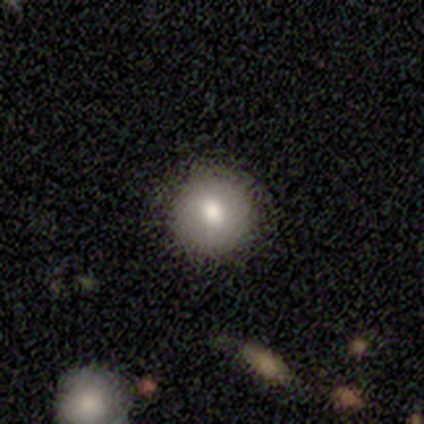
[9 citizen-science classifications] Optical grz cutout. It shows a smooth galaxy with no disk features (89%) that is round (100%). Merging: none (100%).